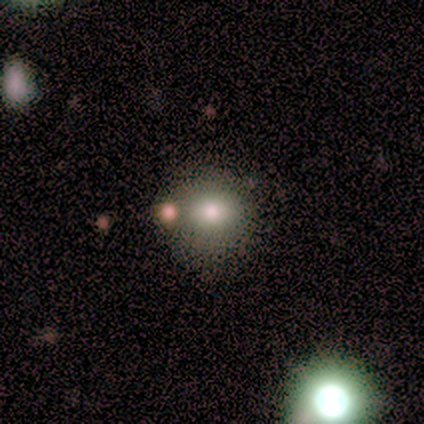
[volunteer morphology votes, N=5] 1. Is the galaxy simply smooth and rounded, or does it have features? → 80% smooth, 20% featured or disk, 0% star or artifact.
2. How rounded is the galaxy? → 100% round, 0% in between, 0% cigar-shaped.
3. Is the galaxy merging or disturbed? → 80% none, 20% minor disturbance, 0% major disturbance, 0% merger.